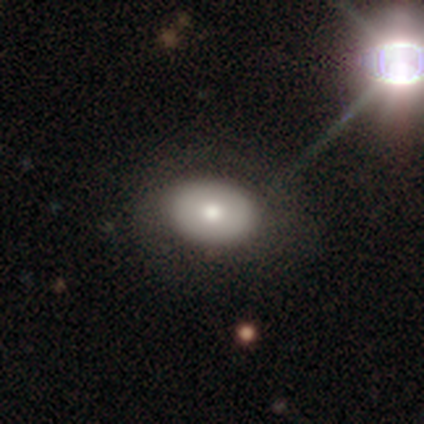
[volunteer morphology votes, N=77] A smooth galaxy with no disk features (60%) that is in between round and cigar-shaped (83%). Merging: none (76%).